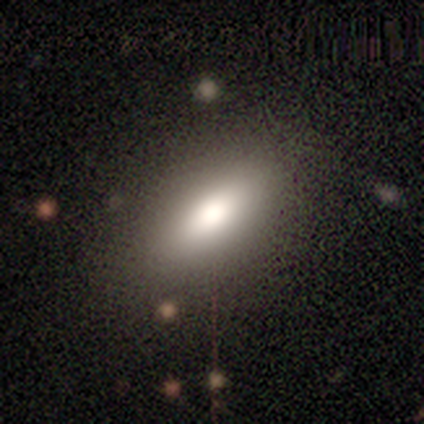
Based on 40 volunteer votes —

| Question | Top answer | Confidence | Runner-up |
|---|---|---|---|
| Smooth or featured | smooth | 88% | featured or disk (10%) |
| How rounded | in between | 86% | cigar-shaped (14%) |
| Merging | none | 56% | minor disturbance (3%) |